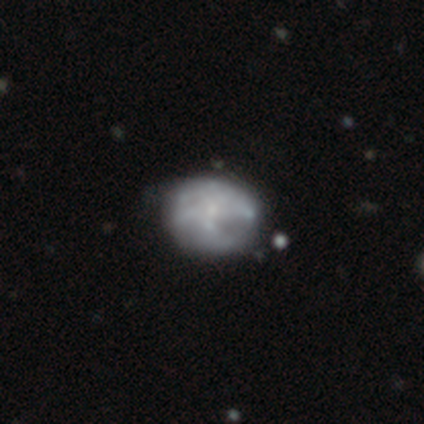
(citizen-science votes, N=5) smooth-or-featured: smooth: 80% | featured or disk: 20% | star or artifact: 0%
  how-rounded: in between: 75% | round: 25% | cigar-shaped: 0%
  merging: none: 40% (tied) | minor disturbance: 40% (tied) | major disturbance: 20% | merger: 0%